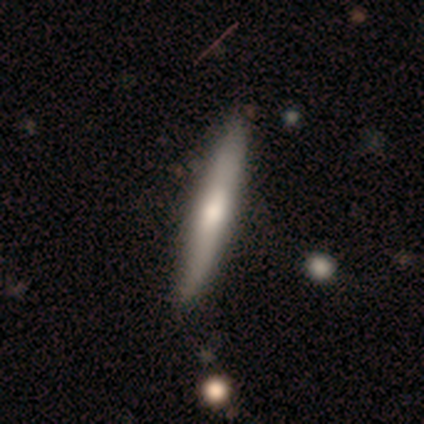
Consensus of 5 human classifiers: Volunteers were most divided on "smooth or featured": featured or disk: 60%, smooth: 40%, star or artifact: 0%. More confident: edge-on disk — yes (100%); merging — none (100%); edge-on bulge — rounded (67%).